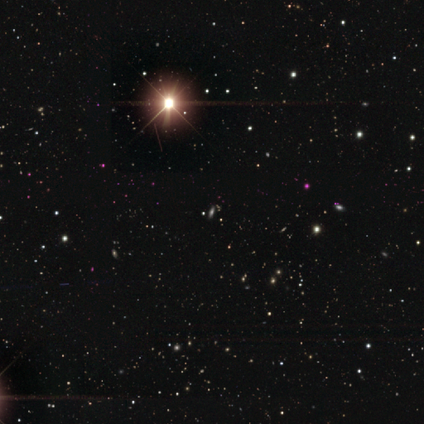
Overall: star or artifact (100%).